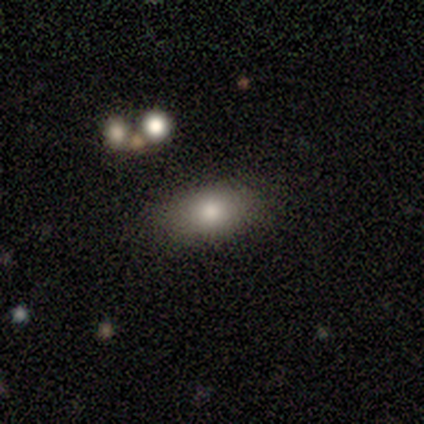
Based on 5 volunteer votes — smooth 60%, featured or disk 20%, star or artifact 20%. Down the decision tree: how rounded — in between (100%); merging — none (75%).